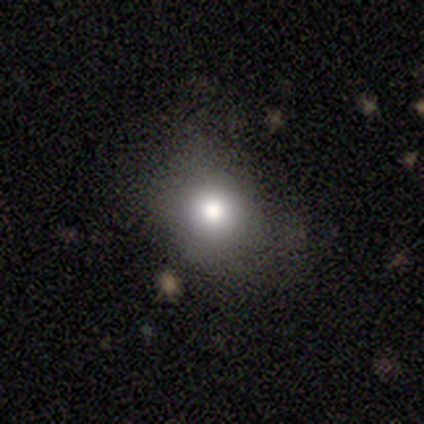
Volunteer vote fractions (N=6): This is clearly a smooth galaxy (83%). How rounded: clearly round (80%). Merging: likely none (60%).